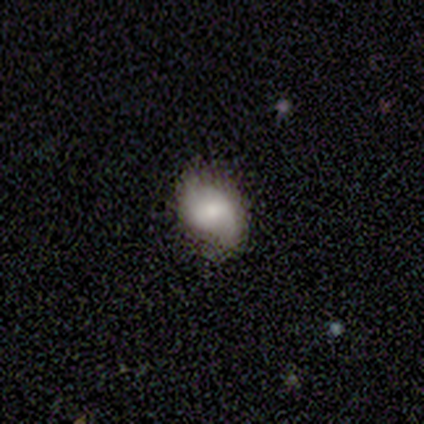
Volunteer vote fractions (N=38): This is possibly a featured or disk galaxy (53%). It is clearly not viewed edge-on (100%). Bar: possibly weak (50%). Spiral arm pattern: clearly yes (85%). Spiral arm count: likely 2 (76%). Spiral winding: possibly loose (47%). Central bulge: possibly small (45%). Merging: likely none (68%).